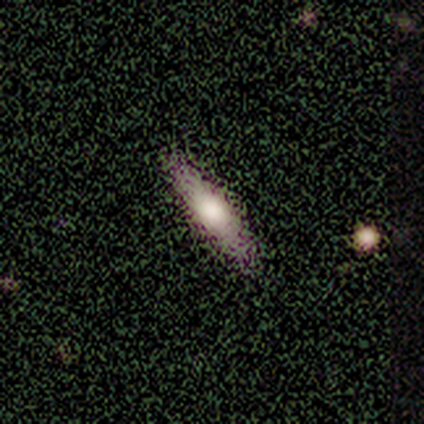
smooth 75%, featured or disk 25%, star or artifact 0%. Down the decision tree: how rounded — cigar-shaped (100%); merging — none (100%).